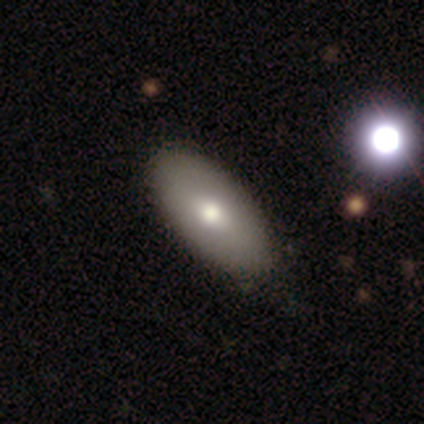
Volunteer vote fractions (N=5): smooth 100%, featured or disk 0%, star or artifact 0%. Down the decision tree: how rounded — in between (80%); merging — none (100%).